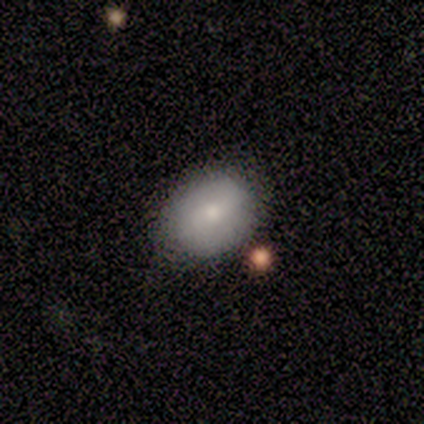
This is clearly a smooth galaxy (80%). How rounded: likely round (75%). Merging: clearly none (80%).